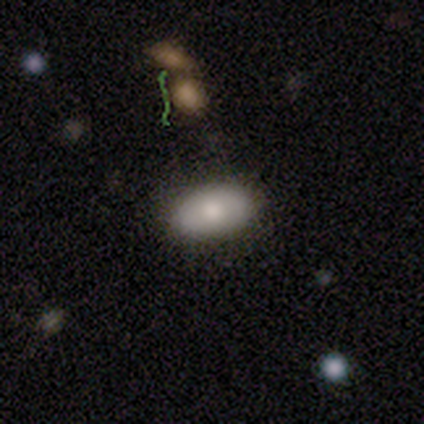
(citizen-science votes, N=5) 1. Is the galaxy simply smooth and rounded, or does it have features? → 60% smooth, 40% featured or disk, 0% star or artifact.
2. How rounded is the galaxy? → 100% in between, 0% round, 0% cigar-shaped.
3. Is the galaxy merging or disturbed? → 60% none, 20% minor disturbance, 20% merger, 0% major disturbance.